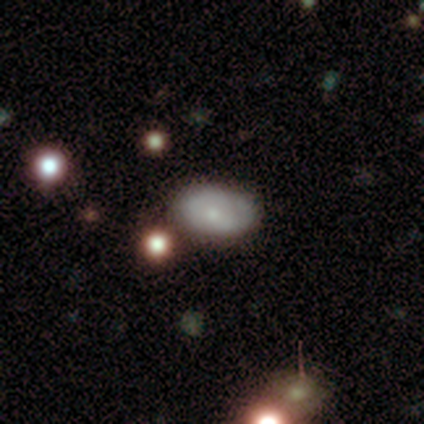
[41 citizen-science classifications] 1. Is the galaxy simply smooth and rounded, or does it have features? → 76% smooth, 24% featured or disk, 0% star or artifact.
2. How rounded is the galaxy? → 97% in between, 3% round, 0% cigar-shaped.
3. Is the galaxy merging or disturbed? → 68% none, 27% minor disturbance, 2% major disturbance, 2% merger.